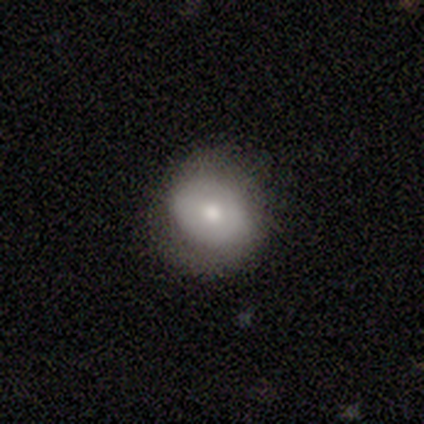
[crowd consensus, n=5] This appears to be a smooth galaxy with no disk features (40%, tied with featured or disk) that is in between round and cigar-shaped (100%). Merging: none (50%, tied with minor disturbance).